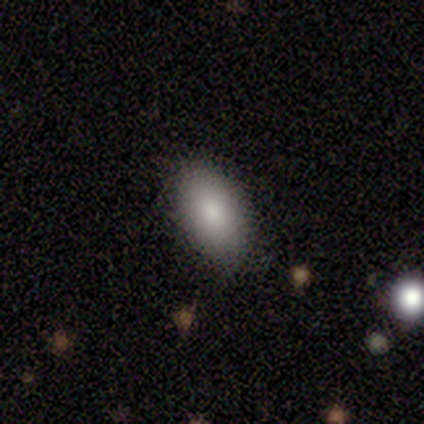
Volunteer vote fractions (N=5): Smooth or featured: smooth — 100%
How rounded: in between — 100%
Merging: none — 100%